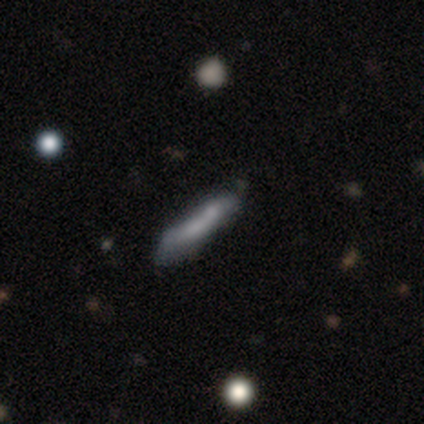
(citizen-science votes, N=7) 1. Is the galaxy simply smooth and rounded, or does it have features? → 57% featured or disk, 43% smooth, 0% star or artifact.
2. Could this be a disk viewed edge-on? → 75% yes, 25% no.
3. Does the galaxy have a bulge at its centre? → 67% none, 33% rounded, 0% boxy.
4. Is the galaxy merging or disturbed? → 43% minor disturbance, 29% none, 29% merger, 0% major disturbance.